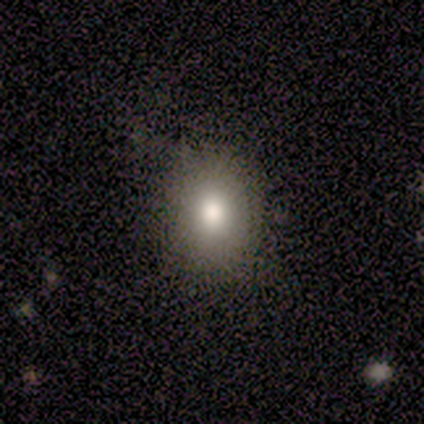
smooth_or_featured: smooth (p=1.00)
how_rounded: round (p=0.57) [alt: in between p=0.43]
merging: none (p=1.00)